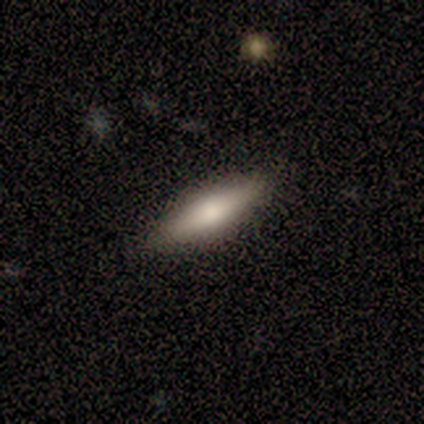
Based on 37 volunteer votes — Morphology: type=smooth (51%); roundness=cigar-shaped (74%); merging=none (89%).